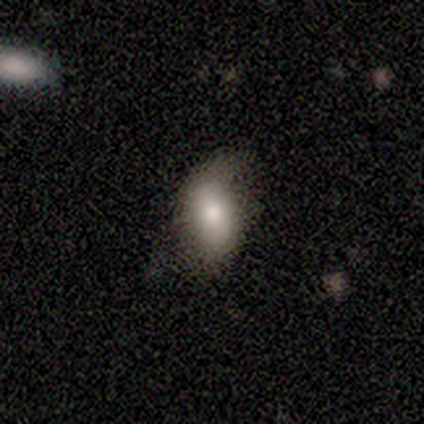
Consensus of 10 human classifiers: Q: Smooth or featured?
A: smooth (60%); runner-up: featured or disk (30%)
Q: How rounded?
A: in between (83%); runner-up: cigar-shaped (17%)
Q: Merging?
A: none (56%); runner-up: minor disturbance (44%)